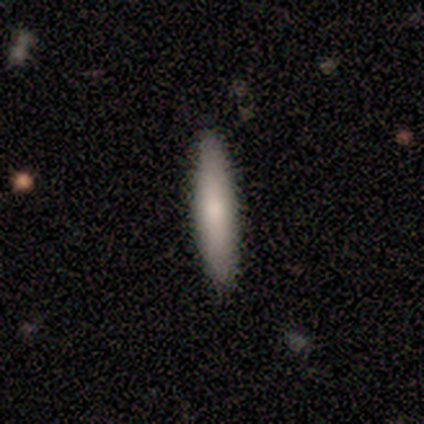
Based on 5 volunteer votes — Morphology: type=smooth (80%); roundness=cigar-shaped (100%); merging=none (100%).